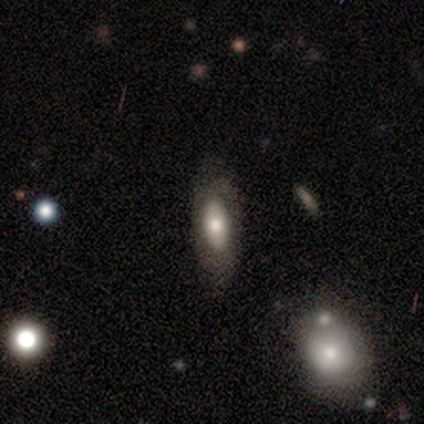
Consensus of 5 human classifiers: Q: Smooth or featured?
A: smooth (60%); runner-up: featured or disk (40%)
Q: How rounded?
A: in between (100%)
Q: Merging?
A: none (100%)